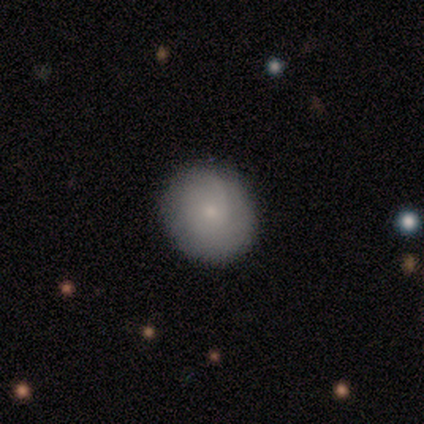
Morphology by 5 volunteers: Smooth or featured?
  - smooth: 40% * (tied)
  - featured or disk: 40% * (tied)
  - star or artifact: 20%
How rounded?
  - round: 50% * (tied)
  - in between: 50% * (tied)
  - cigar-shaped: 0%
Merging?
  - none: 100% *
  - minor disturbance: 0%
  - major disturbance: 0%
  - merger: 0%